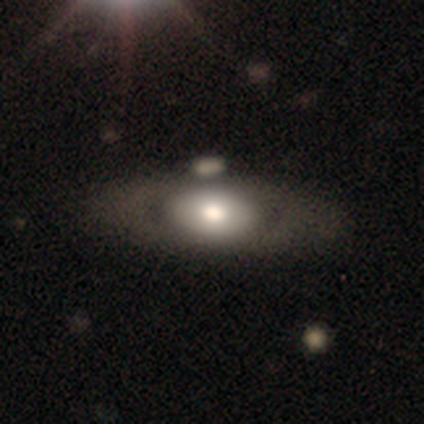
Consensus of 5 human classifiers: smooth_or_featured: smooth (p=0.60) [alt: featured or disk p=0.40]
how_rounded: in between (p=0.67) [alt: round p=0.33]
merging: none (p=0.80) [alt: minor disturbance p=0.20]